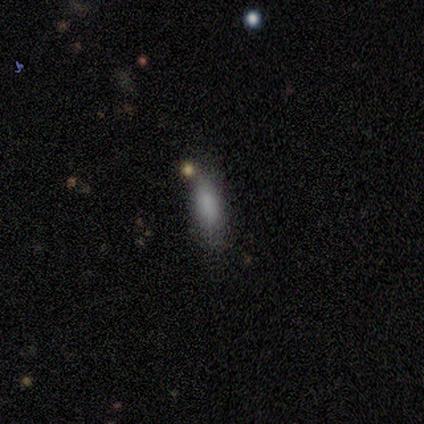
This appears to be a smooth galaxy with no disk features (73%) that is in between round and cigar-shaped (75%). Merging: none (82%).